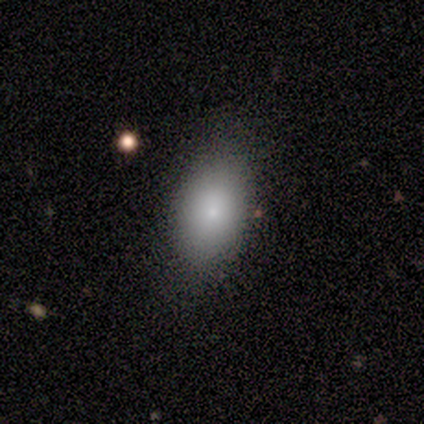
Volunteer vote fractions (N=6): smooth 83%, star or artifact 17%, featured or disk 0%. Down the decision tree: how rounded — in between (100%); merging — none (80%).